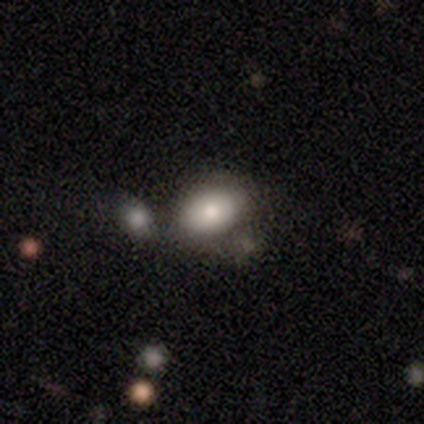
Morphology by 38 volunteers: This appears to be a smooth galaxy with no disk features (84%) that is in between round and cigar-shaped (88%). Merging: none (54%).